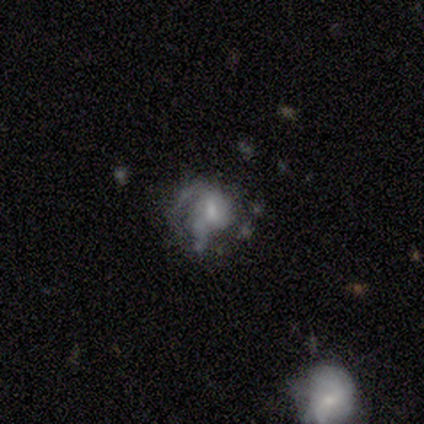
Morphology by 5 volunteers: Smooth or featured? featured or disk (100%)
Edge-on disk? no (100%)
Bar? no (60%)
Spiral arms? yes (60%)
Spiral winding? medium (67%)
Spiral arm count? can't tell (67%)
Bulge size? moderate (60%)
Merging? major disturbance (60%)